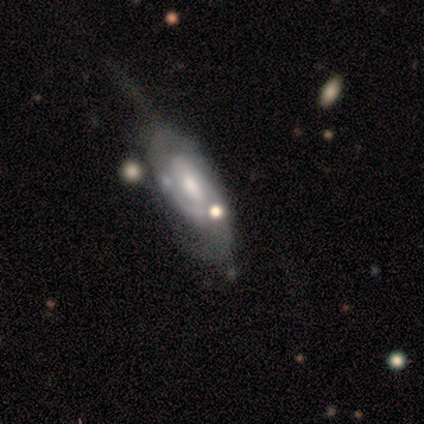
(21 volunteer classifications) This is likely a featured or disk galaxy (71%). It is clearly not viewed edge-on (87%). Bar: possibly weak (46%, tied with no). Spiral arm pattern: clearly yes (92%). Spiral arm count: possibly 2 (50%). Spiral winding: possibly medium (58%). Central bulge: possibly moderate (46%, tied with small). Merging: possibly major disturbance (48%).